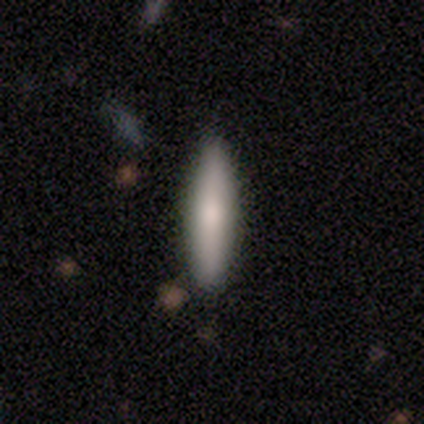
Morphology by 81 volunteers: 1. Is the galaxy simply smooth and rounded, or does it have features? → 75% smooth, 14% featured or disk, 11% star or artifact.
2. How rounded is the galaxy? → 87% cigar-shaped, 11% in between, 2% round.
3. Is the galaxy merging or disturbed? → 89% none, 8% minor disturbance, 1% major disturbance, 1% merger.